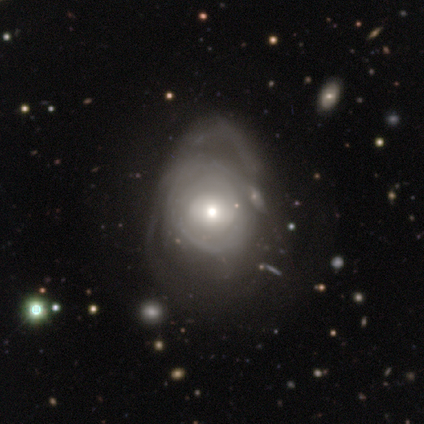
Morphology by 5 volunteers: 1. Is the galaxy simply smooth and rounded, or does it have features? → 60% featured or disk, 40% smooth, 0% star or artifact.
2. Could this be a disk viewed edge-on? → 100% no, 0% yes.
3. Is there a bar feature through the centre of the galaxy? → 100% no, 0% strong, 0% weak.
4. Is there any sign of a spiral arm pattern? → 67% yes, 33% no.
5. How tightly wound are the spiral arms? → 50% tight (tied), 50% medium (tied), 0% loose.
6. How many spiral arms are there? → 100% can't tell, 0% 1, 0% 2, 0% 3, 0% 4, 0% more than 4.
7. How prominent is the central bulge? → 100% moderate, 0% dominant, 0% large, 0% small, 0% none.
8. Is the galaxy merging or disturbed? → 60% major disturbance, 40% none, 0% minor disturbance, 0% merger.